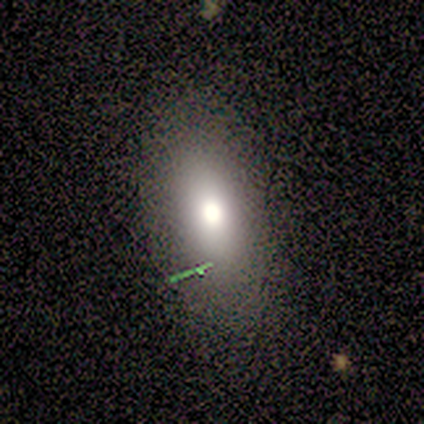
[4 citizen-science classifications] Smooth or featured?
  - smooth: 75% *
  - featured or disk: 25%
  - star or artifact: 0%
How rounded?
  - in between: 67% *
  - cigar-shaped: 33%
  - round: 0%
Merging?
  - none: 75% *
  - minor disturbance: 25%
  - major disturbance: 0%
  - merger: 0%